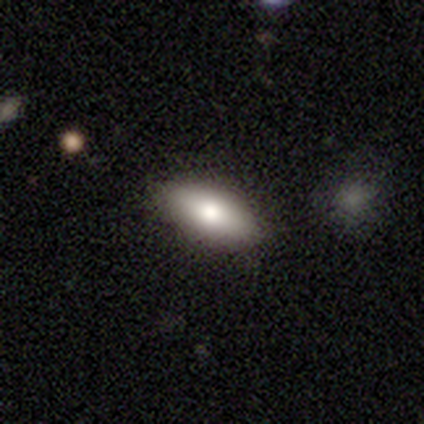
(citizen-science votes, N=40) A smooth galaxy with no disk features (85%) that is in between round and cigar-shaped (85%).

Vote fractions:
- Smooth or featured? smooth: 85% / featured or disk: 10% / star or artifact: 5%
- How rounded? in between: 85% / cigar-shaped: 15% / round: 0%
- Merging? none: 87% / minor disturbance: 13% / major disturbance: 0% / merger: 0%